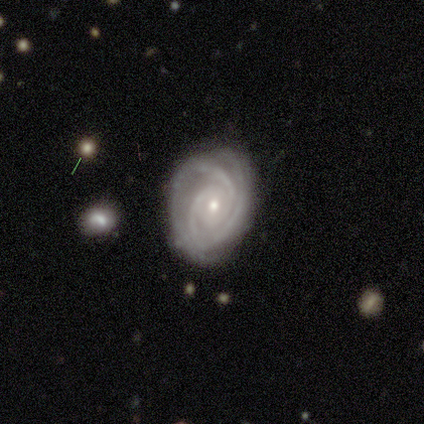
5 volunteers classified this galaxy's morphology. Smooth or featured?
  - featured or disk: 100% *
  - smooth: 0%
  - star or artifact: 0%
Edge-on disk?
  - no: 100% *
  - yes: 0%
Bar?
  - no: 60% *
  - weak: 40%
  - strong: 0%
Spiral arms?
  - yes: 100% *
  - no: 0%
Spiral winding?
  - tight: 80% *
  - medium: 20%
  - loose: 0%
Spiral arm count?
  - 2: 60% *
  - 3: 40%
  - 1: 0%
  - 4: 0%
  - more than 4: 0%
  - can't tell: 0%
Bulge size?
  - small: 60% *
  - moderate: 40%
  - dominant: 0%
  - large: 0%
  - none: 0%
Merging?
  - none: 100% *
  - minor disturbance: 0%
  - major disturbance: 0%
  - merger: 0%